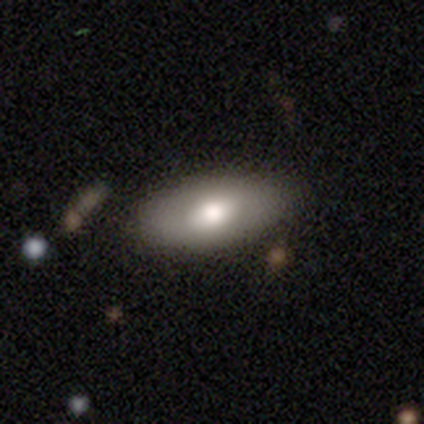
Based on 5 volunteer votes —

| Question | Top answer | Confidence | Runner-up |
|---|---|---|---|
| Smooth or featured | smooth | 100% | — |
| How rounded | in between | 80% | cigar-shaped (20%) |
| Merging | none | 80% | minor disturbance (20%) |